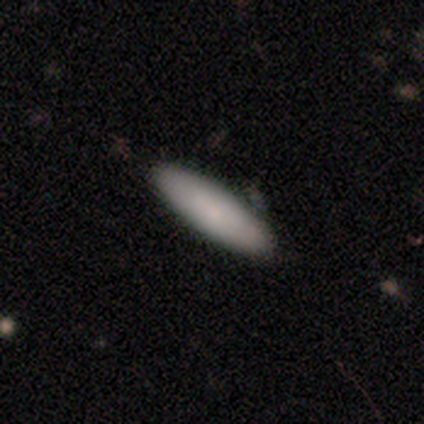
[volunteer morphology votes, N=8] Smooth or featured?
  - smooth: 88% *
  - featured or disk: 12%
  - star or artifact: 0%
How rounded?
  - in between: 57% *
  - cigar-shaped: 43%
  - round: 0%
Merging?
  - none: 88% *
  - minor disturbance: 12%
  - major disturbance: 0%
  - merger: 0%